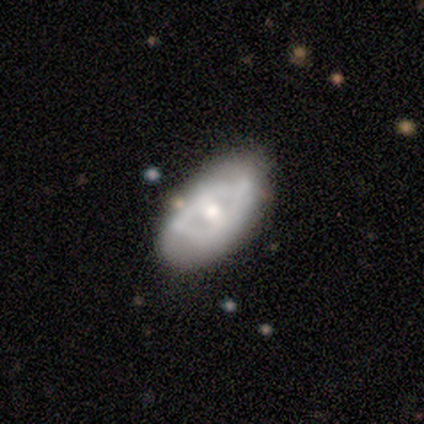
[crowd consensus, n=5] This appears to be a featured or disk galaxy (80%) with no bar (100%), no spiral arms (100%) and a moderate central bulge (75%). Merging: minor disturbance (60%).